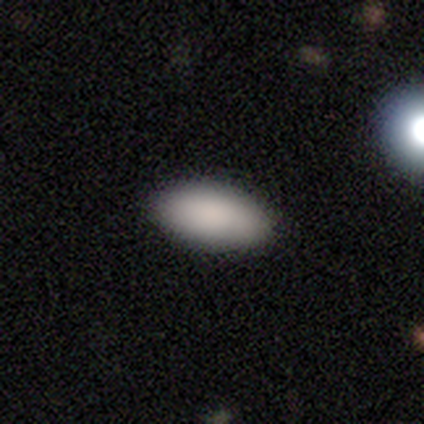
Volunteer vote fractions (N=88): A smooth galaxy with no disk features (97%) that is in between round and cigar-shaped (93%). Merging: none (92%).